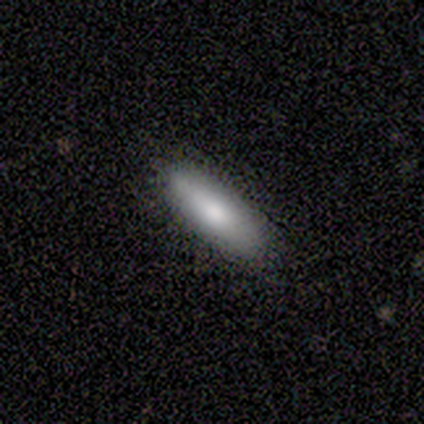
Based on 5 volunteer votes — Q: Smooth or featured?
A: smooth (80%); runner-up: star or artifact (20%)
Q: How rounded?
A: in between (75%); runner-up: cigar-shaped (25%)
Q: Merging?
A: none (100%)